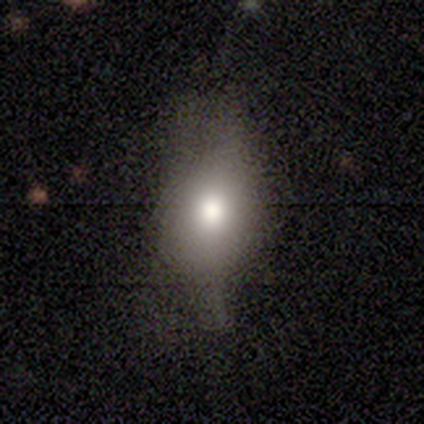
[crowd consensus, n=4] Smooth or featured: smooth — 50% (featured or disk — 25%)
How rounded: round — 50% (tied with in between — 50%)
Merging: minor disturbance — 67% (major disturbance — 33%)